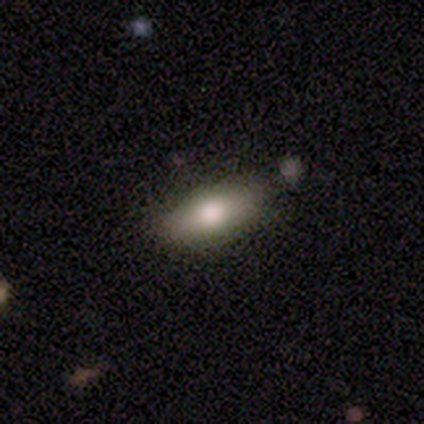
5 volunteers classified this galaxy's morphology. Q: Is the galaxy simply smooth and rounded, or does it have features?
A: smooth — 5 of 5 (100%).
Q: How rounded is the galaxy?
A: in between — 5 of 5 (100%).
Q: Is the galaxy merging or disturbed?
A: none — 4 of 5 (80%).